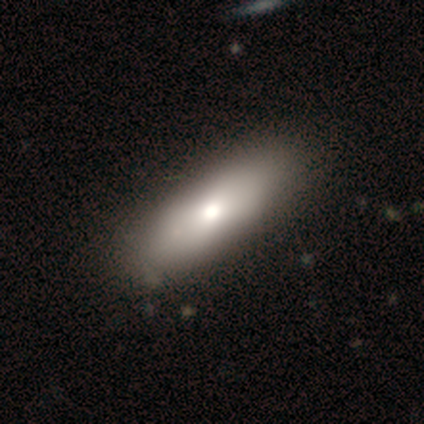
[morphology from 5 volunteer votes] This appears to be a smooth galaxy with no disk features (60%) that is cigar-shaped (67%). Merging: none (75%).